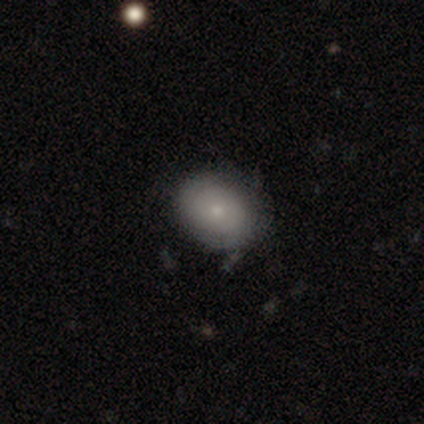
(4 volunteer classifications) A smooth galaxy with no disk features (50%, tied with featured or disk) that is round (100%).

Vote fractions:
- Smooth or featured? smooth: 50% (tied) / featured or disk: 50% (tied) / star or artifact: 0%
- How rounded? round: 100% / in between: 0% / cigar-shaped: 0%
- Merging? none: 50% / minor disturbance: 25% / major disturbance: 25% / merger: 0%